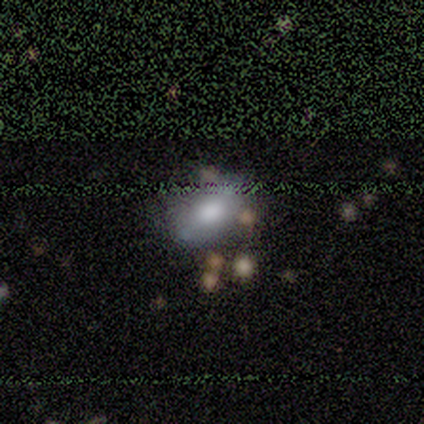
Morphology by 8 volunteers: type=smooth (75%); roundness=in between (83%); merging=none (88%).